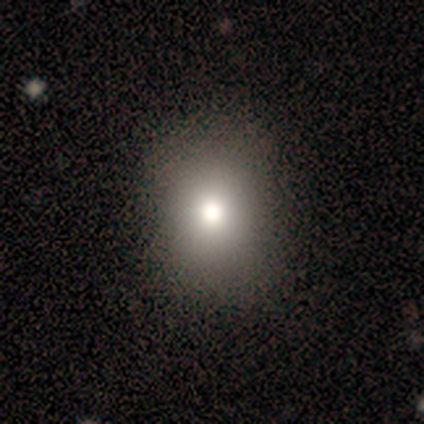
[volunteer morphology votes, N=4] Smooth or featured? 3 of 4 (75%) said smooth. How rounded? 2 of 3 (67%) said in between. Merging? 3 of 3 (100%) said none.